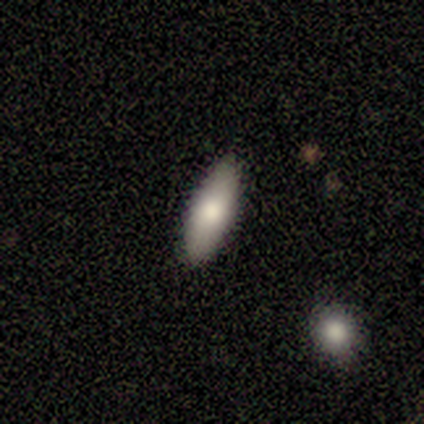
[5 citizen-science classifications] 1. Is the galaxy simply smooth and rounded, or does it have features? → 100% smooth, 0% featured or disk, 0% star or artifact.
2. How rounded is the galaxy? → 80% in between, 20% cigar-shaped, 0% round.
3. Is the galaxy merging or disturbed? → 100% none, 0% minor disturbance, 0% major disturbance, 0% merger.